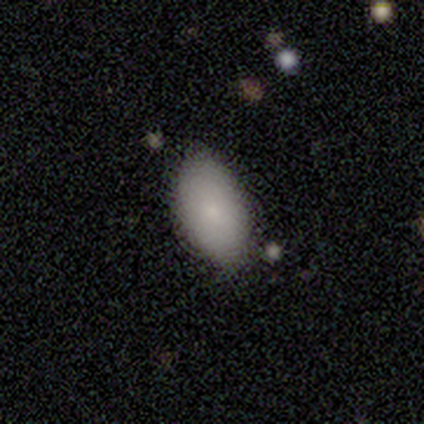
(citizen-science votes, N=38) A smooth galaxy with no disk features (82%) that is in between round and cigar-shaped (90%).

Vote fractions:
- Smooth or featured? smooth: 82% / featured or disk: 13% / star or artifact: 5%
- How rounded? in between: 90% / cigar-shaped: 6% / round: 3%
- Merging? none: 78% / minor disturbance: 17% / major disturbance: 3% / merger: 3%